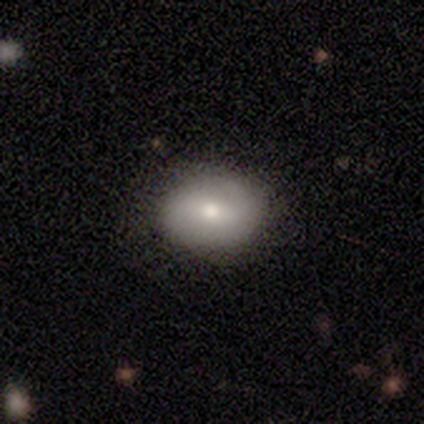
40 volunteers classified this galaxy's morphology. A smooth galaxy with no disk features (68%) that is in between round and cigar-shaped (81%). Merging: none (59%).